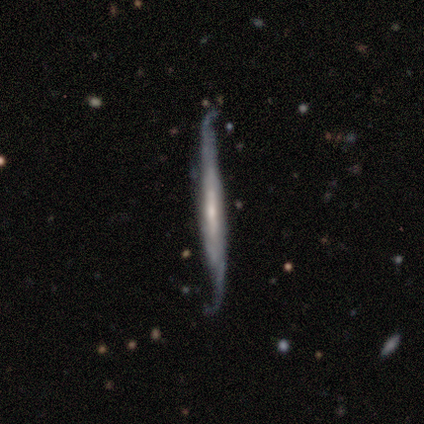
featured or disk 80%, smooth 20%, star or artifact 0%. Down the decision tree: edge-on disk — yes (100%); edge-on bulge — none (50%); merging — none (60%).